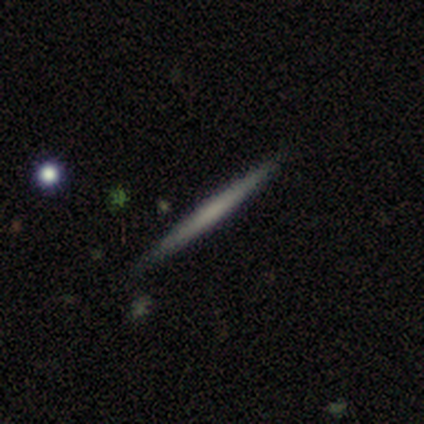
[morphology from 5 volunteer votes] Smooth or featured: featured or disk — 60% (smooth — 40%)
Edge-on disk: yes — 100%
Edge-on bulge: rounded — 67% (none — 33%)
Merging: none — 100%